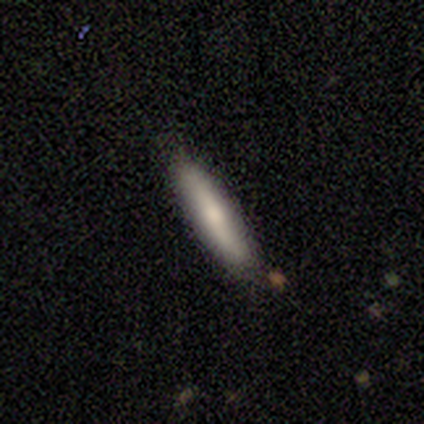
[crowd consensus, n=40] This is clearly a smooth galaxy (82%). How rounded: likely cigar-shaped (76%). Merging: clearly none (87%).